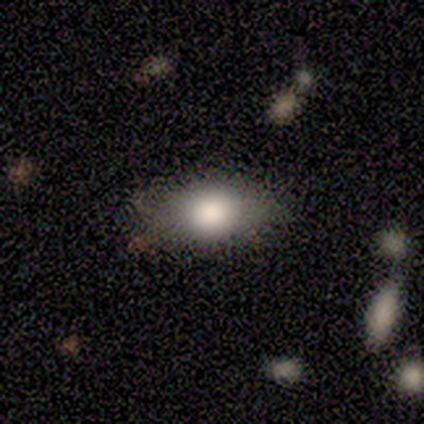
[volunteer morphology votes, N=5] smooth-or-featured: smooth: 80% | featured or disk: 20% | star or artifact: 0%
  how-rounded: in between: 100% | round: 0% | cigar-shaped: 0%
  merging: none: 80% | minor disturbance: 20% | major disturbance: 0% | merger: 0%